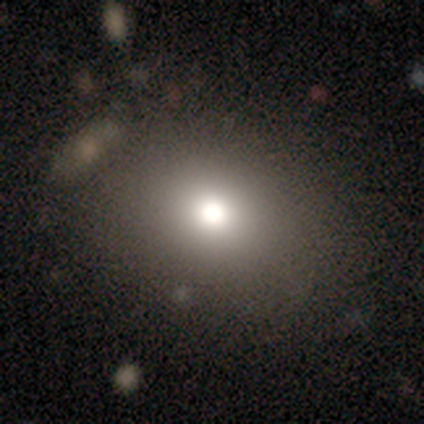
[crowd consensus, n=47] Morphology: type=smooth (68%); roundness=round (50%); merging=none (82%).